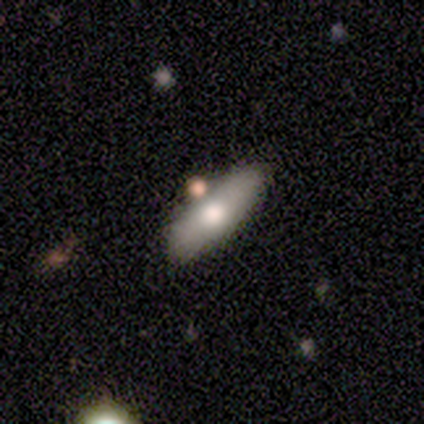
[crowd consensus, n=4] Morphology: type=smooth (75%); roundness=cigar-shaped (100%); merging=none (100%).